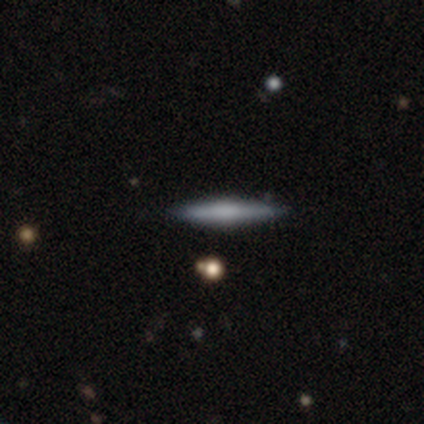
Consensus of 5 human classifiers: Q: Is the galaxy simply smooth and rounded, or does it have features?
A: smooth — 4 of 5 (80%).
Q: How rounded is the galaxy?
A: cigar-shaped — 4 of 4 (100%).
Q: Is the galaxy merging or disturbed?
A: none — 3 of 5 (60%).